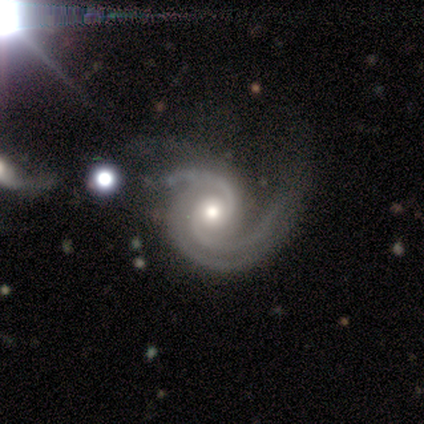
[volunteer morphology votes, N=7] Volunteers were most divided on "spiral arm count" (2-way tie): 2: 43%, 3: 43%, can't tell: 14%, 1: 0%, 4: 0%, more than 4: 0%. More confident: smooth or featured — featured or disk (100%); edge-on disk — no (100%); spiral arms — yes (100%); bar — no (86%); bulge size — moderate (86%); spiral winding — tight (57%); merging — minor disturbance (57%).